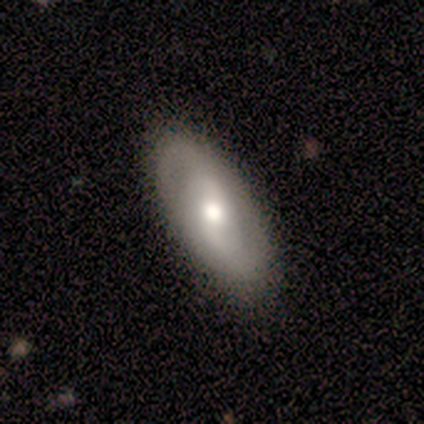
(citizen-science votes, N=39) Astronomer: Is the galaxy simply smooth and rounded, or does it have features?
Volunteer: featured or disk — 72%.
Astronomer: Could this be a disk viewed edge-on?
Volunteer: no — 96%.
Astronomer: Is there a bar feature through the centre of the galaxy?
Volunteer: weak — 44% (runner-up: strong, 30%).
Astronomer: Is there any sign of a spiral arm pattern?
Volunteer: yes — 67%.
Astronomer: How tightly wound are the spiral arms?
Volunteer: loose — 39% (runner-up: medium, 33%).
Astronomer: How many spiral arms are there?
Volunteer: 2 — 89%.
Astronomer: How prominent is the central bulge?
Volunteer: moderate — 74%.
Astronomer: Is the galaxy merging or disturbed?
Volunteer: none — 87%.